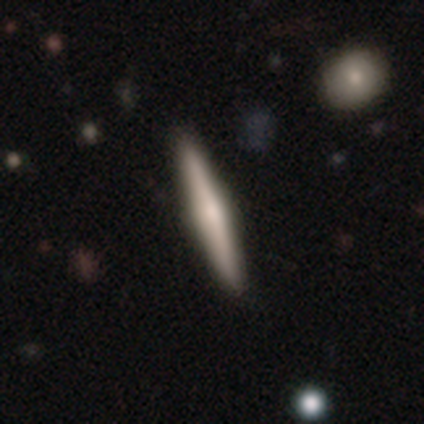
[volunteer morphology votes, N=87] A featured or disk galaxy (57%) viewed edge-on (100%) with a rounded central bulge (68%). Merging: none (85%).